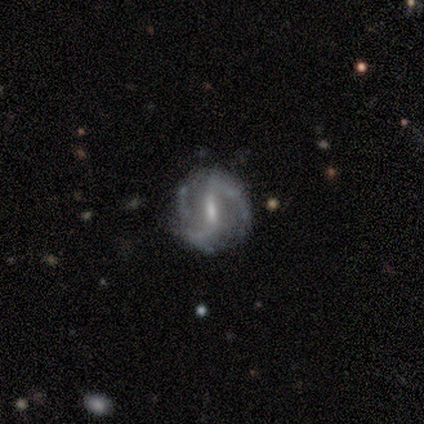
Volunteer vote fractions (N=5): smooth-or-featured: featured or disk: 80% | star or artifact: 20% | smooth: 0%
  disk-edge-on: no: 100% | yes: 0%
    bar: strong: 75% | weak: 25% | no: 0%
    has-spiral-arms: yes: 100% | no: 0%
      spiral-winding: tight: 50% (tied) | loose: 50% (tied) | medium: 0%
      spiral-arm-count: 2: 100% | 1: 0% | 3: 0% | 4: 0% | more than 4: 0% | can't tell: 0%
    bulge-size: moderate: 50% (tied) | small: 50% (tied) | dominant: 0% | large: 0% | none: 0%
  merging: none: 50% | minor disturbance: 25% | merger: 25% | major disturbance: 0%